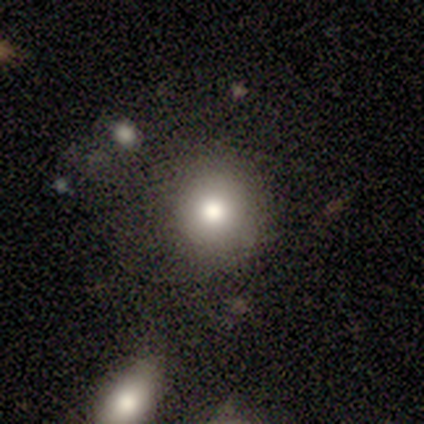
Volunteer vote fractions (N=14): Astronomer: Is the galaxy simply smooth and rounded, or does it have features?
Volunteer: smooth — 93%.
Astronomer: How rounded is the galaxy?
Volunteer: round — 85%.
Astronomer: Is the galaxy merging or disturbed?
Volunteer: none — 79%.